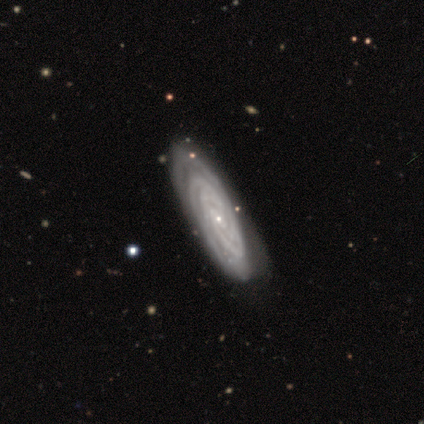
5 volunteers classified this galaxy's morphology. featured or disk 100%, smooth 0%, star or artifact 0%. Down the decision tree: edge-on disk — no (100%); bar — no (80%); spiral arms — yes (100%); spiral arm count — 4 (40%, tied with can't tell); spiral winding — tight (60%); bulge size — small (60%); merging — none (60%).